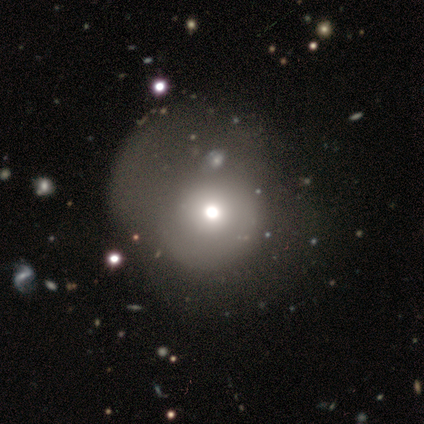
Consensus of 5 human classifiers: Volunteers were most divided on "merging" (2-way tie): none: 50%, major disturbance: 50%, minor disturbance: 0%, merger: 0%. More confident: how rounded — round (100%); smooth or featured — smooth (60%).